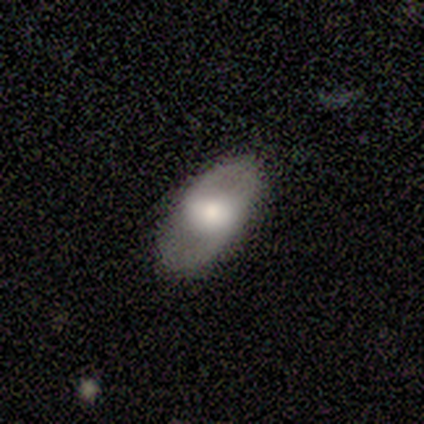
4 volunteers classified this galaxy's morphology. smooth_or_featured: smooth (p=0.50) [tied with: featured or disk p=0.50]
how_rounded: round (p=0.50) [tied with: in between p=0.50]
merging: none (p=0.75) [alt: minor disturbance p=0.25]